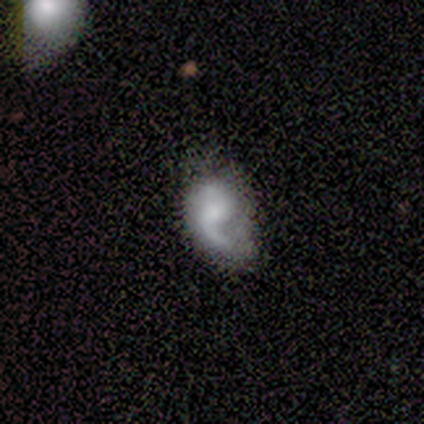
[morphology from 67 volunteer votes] A featured or disk galaxy (70%) with no bar (67%), 1 (62%) loose (73%) spiral arms (98%) and a moderate central bulge (33%).

Vote fractions:
- Smooth or featured? featured or disk: 70% / smooth: 24% / star or artifact: 6%
- Edge-on disk? no: 98% / yes: 2%
- Bar? no: 67% / weak: 28% / strong: 4%
- Spiral arms? yes: 98% / no: 2%
- Spiral winding? loose: 73% / medium: 16% / tight: 11%
- Spiral arm count? 1: 62% / 2: 33% / more than 4: 2% / can't tell: 2% / 3: 0% / 4: 0%
- Bulge size? moderate: 33% / small: 26% / none: 24% / large: 15% / dominant: 2%
- Merging? minor disturbance: 38% / none: 35% / major disturbance: 24% / merger: 3%